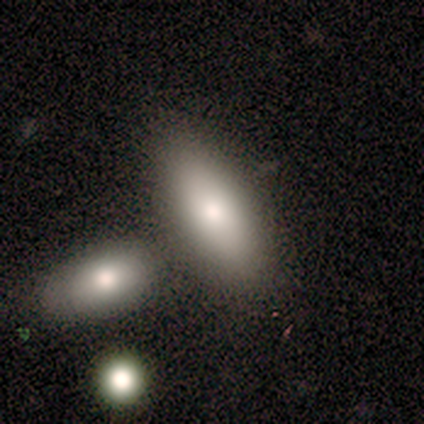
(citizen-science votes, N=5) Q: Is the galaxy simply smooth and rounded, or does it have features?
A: smooth — 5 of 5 (100%).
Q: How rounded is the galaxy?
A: in between — 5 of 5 (100%).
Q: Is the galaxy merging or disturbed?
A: merger — 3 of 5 (60%).